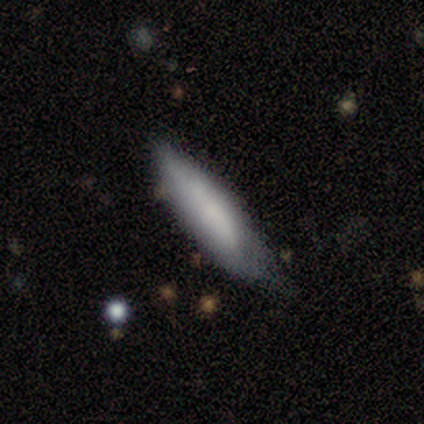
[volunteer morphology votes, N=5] smooth 80%, featured or disk 20%, star or artifact 0%. Down the decision tree: how rounded — in between (50%, tied with cigar-shaped); merging — none (60%).